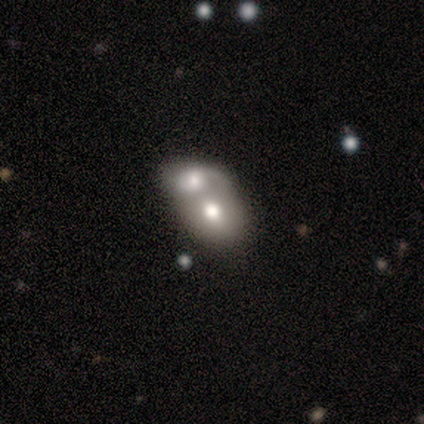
smooth-or-featured: featured or disk: 60% | smooth: 40% | star or artifact: 0%
  disk-edge-on: no: 67% | yes: 33%
    bar: no: 100% | strong: 0% | weak: 0%
    has-spiral-arms: no: 100% | yes: 0%
    bulge-size: none: 100% | dominant: 0% | large: 0% | moderate: 0% | small: 0%
  merging: merger: 100% | none: 0% | minor disturbance: 0% | major disturbance: 0%